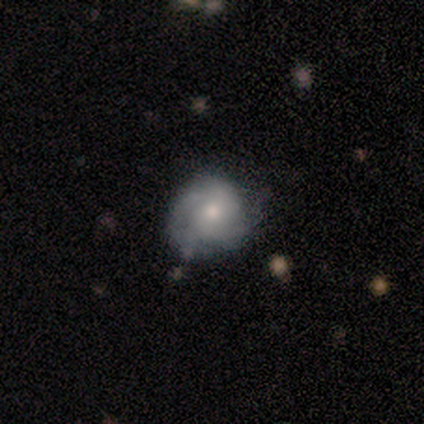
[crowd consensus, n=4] Morphology: type=featured or disk (50%); edge-on=no (100%); bar=no (100%); spiral arms=yes (50%, tied with no); winding=tight (100%); arm count=3 (100%); bulge=moderate (100%); merging=none (67%).